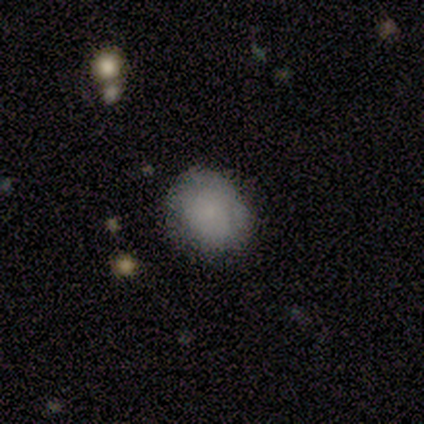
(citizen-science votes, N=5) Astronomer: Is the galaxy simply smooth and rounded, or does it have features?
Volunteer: smooth — 80%.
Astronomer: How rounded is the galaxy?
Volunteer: round — 75%.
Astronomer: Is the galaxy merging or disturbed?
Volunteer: none — 75%.